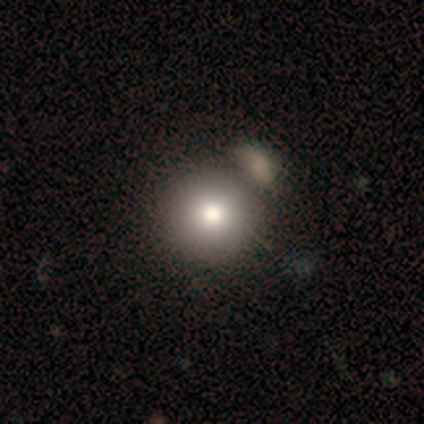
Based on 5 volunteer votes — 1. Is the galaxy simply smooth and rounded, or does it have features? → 60% smooth, 40% featured or disk, 0% star or artifact.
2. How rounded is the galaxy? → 100% round, 0% in between, 0% cigar-shaped.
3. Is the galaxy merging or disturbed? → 100% none, 0% minor disturbance, 0% major disturbance, 0% merger.